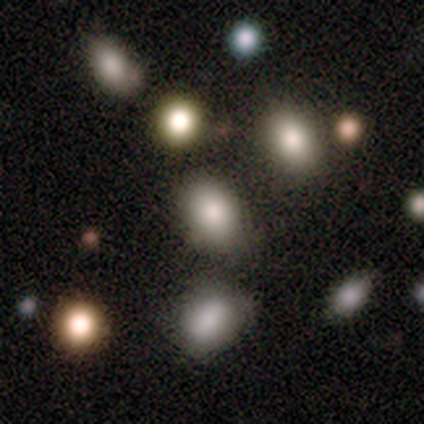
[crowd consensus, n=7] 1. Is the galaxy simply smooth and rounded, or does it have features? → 71% smooth, 29% star or artifact, 0% featured or disk.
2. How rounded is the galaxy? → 100% in between, 0% round, 0% cigar-shaped.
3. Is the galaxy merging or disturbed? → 60% none, 40% major disturbance, 0% minor disturbance, 0% merger.